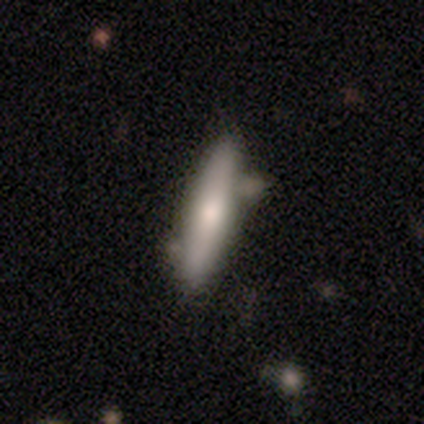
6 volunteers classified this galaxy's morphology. This is clearly a smooth galaxy (83%). How rounded: clearly cigar-shaped (100%). Merging: likely none (67%).